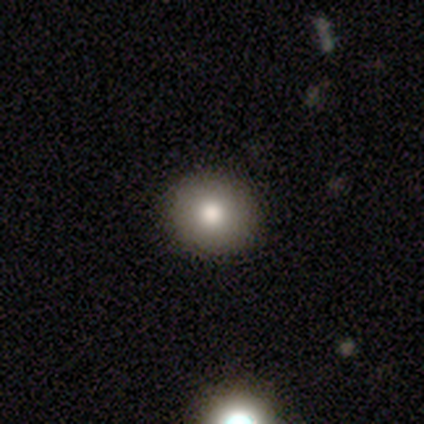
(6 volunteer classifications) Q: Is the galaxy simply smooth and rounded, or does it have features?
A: smooth — 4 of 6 (67%).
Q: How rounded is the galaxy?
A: round — 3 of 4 (75%).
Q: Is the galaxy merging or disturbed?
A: none — 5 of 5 (100%).